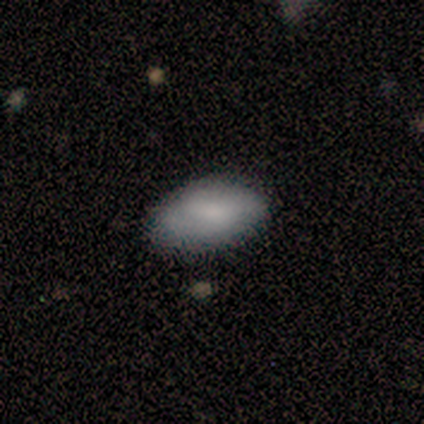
Q: Smooth or featured?
A: smooth (60%); runner-up: featured or disk (40%)
Q: How rounded?
A: in between (100%)
Q: Merging?
A: none (80%); runner-up: minor disturbance (20%)